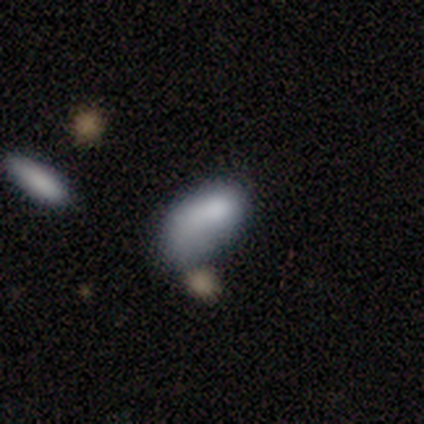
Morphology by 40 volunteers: This is clearly a smooth galaxy (80%). How rounded: clearly in between (91%). Merging: marginally minor disturbance (41%).